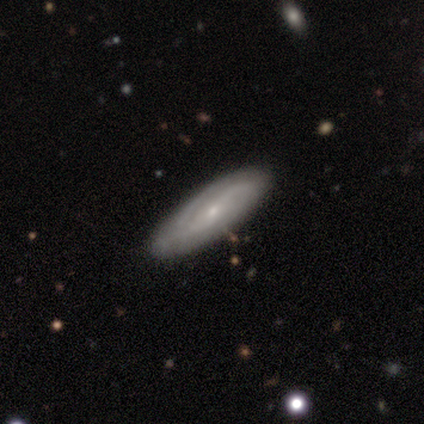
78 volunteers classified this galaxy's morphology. A featured or disk galaxy (82%) with no bar (54%), medium (50%) spiral arms (93%) and a small central bulge (91%). Merging: none (46%).